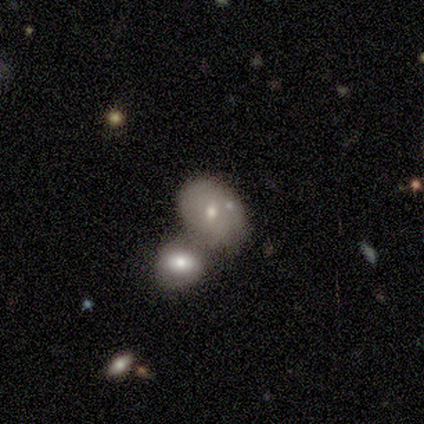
Q: Smooth or featured?
A: smooth (60%); runner-up: featured or disk (40%)
Q: How rounded?
A: in between (100%)
Q: Merging?
A: merger (60%); runner-up: none (20%)